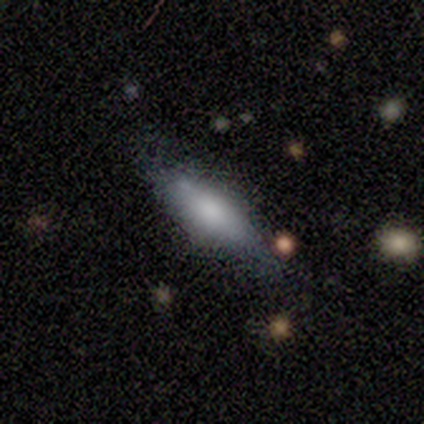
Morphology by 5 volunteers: Q: Smooth or featured?
A: smooth (80%); runner-up: featured or disk (20%)
Q: How rounded?
A: in between (100%)
Q: Merging?
A: none (80%); runner-up: minor disturbance (20%)